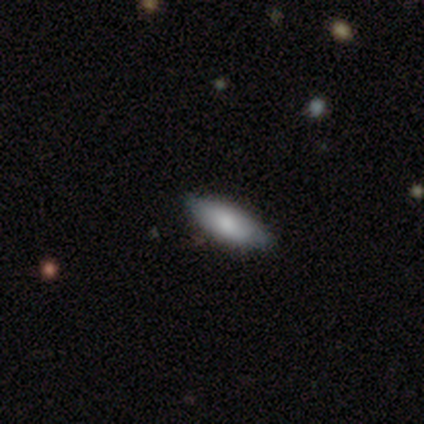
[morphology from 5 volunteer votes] smooth-or-featured: smooth: 100% | featured or disk: 0% | star or artifact: 0%
  how-rounded: in between: 80% | cigar-shaped: 20% | round: 0%
  merging: none: 80% | minor disturbance: 20% | major disturbance: 0% | merger: 0%